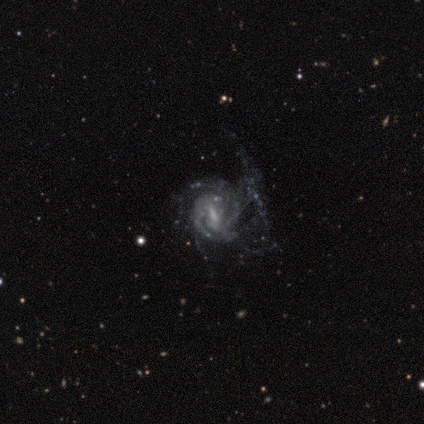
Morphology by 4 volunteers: Smooth or featured?
  - featured or disk: 100% *
  - smooth: 0%
  - star or artifact: 0%
Edge-on disk?
  - no: 100% *
  - yes: 0%
Bar?
  - weak: 75% *
  - no: 25%
  - strong: 0%
Spiral arms?
  - yes: 100% *
  - no: 0%
Spiral winding?
  - tight: 50% *
  - medium: 25%
  - loose: 25%
Spiral arm count?
  - can't tell: 75% *
  - more than 4: 25%
  - 1: 0%
  - 2: 0%
  - 3: 0%
  - 4: 0%
Bulge size?
  - small: 75% *
  - moderate: 25%
  - dominant: 0%
  - large: 0%
  - none: 0%
Merging?
  - major disturbance: 50% * (tied)
  - merger: 50% * (tied)
  - none: 0%
  - minor disturbance: 0%